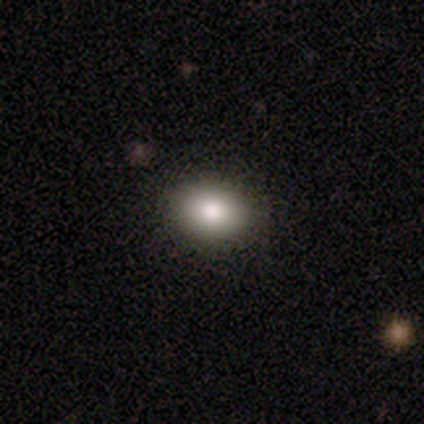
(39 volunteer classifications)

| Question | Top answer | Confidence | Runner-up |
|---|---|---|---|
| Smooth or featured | smooth | 74% | featured or disk (15%) |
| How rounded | in between | 69% | round (31%) |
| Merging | none | 91% | minor disturbance (9%) |